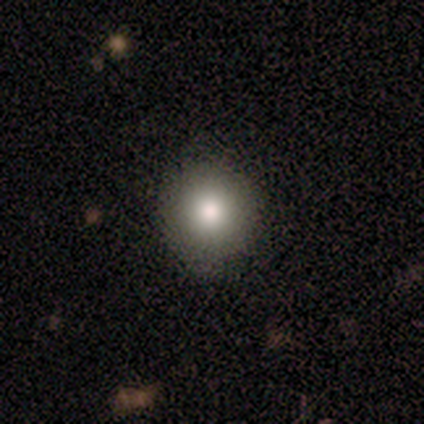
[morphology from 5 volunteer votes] This appears to be a smooth galaxy with no disk features (80%) that is round (100%). Merging: none (100%).